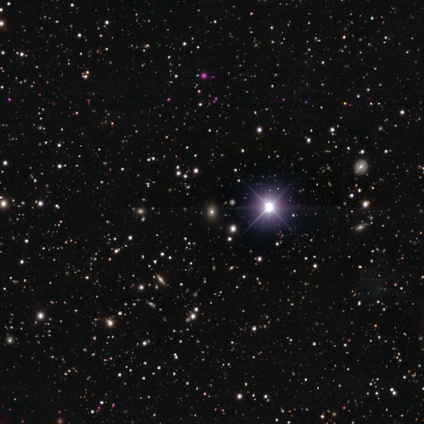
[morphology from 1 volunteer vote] type=star or artifact (100%).